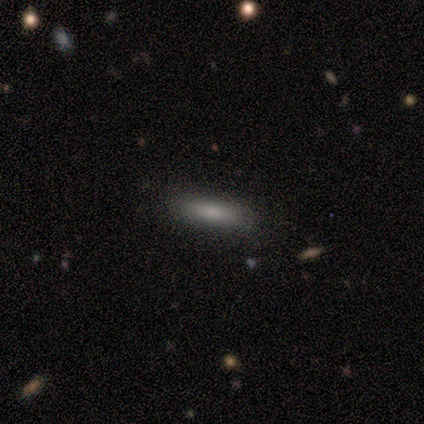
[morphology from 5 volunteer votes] This appears to be a smooth galaxy with no disk features (80%) that is cigar-shaped (100%). Merging: none (75%).